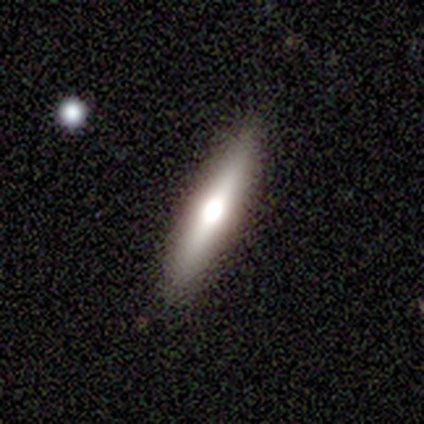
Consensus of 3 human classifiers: A smooth galaxy with no disk features (67%) that is cigar-shaped (100%). Merging: none (67%).